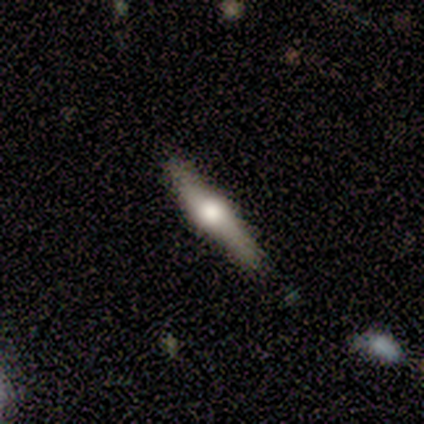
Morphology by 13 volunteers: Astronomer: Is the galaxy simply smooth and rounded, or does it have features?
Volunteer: featured or disk — 54% (runner-up: smooth, 38%).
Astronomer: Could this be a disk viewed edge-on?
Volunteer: yes — 100%.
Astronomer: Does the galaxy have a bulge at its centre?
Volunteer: rounded — 100%.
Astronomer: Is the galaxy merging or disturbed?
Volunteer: none — 75%.